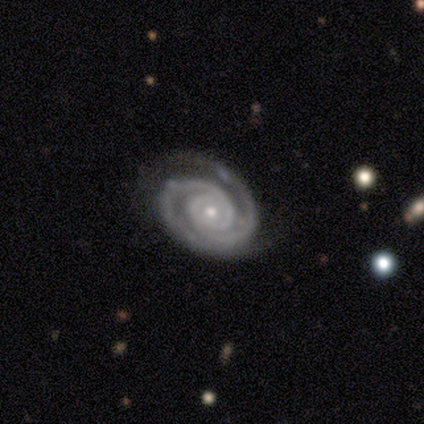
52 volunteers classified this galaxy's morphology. Volunteers were most divided on "merging": none: 70%, minor disturbance: 22%, major disturbance: 6%, merger: 2%. More confident: spiral arms — yes (100%); edge-on disk — no (98%); smooth or featured — featured or disk (96%); spiral arm count — 2 (88%); bar — no (86%); spiral winding — tight (78%); bulge size — small (73%).